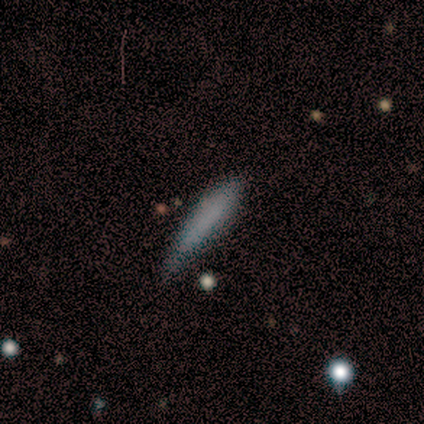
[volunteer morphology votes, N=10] type=smooth (90%); roundness=cigar-shaped (100%); merging=none (50%).